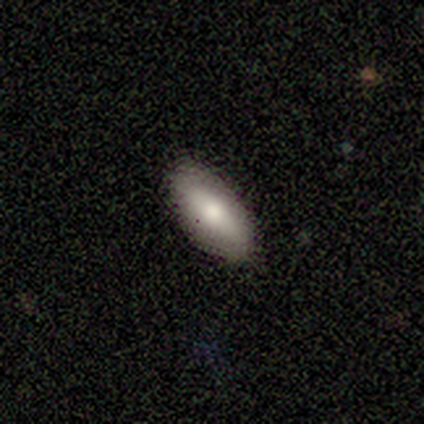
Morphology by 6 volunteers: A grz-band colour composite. It shows a smooth galaxy with no disk features (83%) that is in between round and cigar-shaped (80%). Merging: none (100%).